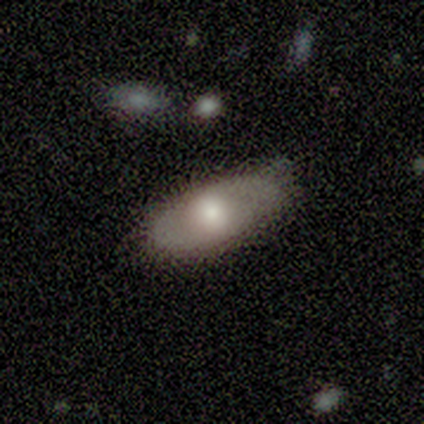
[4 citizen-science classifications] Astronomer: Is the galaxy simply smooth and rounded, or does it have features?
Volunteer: smooth — 75%.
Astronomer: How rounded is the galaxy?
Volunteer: in between — 100%.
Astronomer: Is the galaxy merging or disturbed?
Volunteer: none — 50%, tied with minor disturbance at 50%.